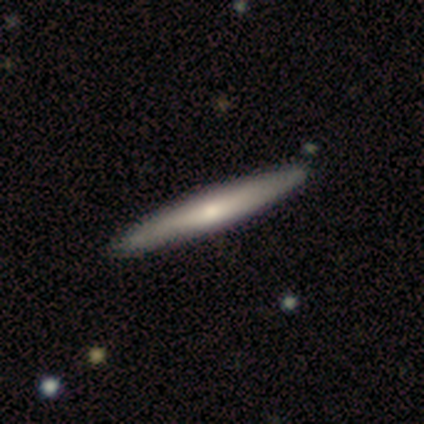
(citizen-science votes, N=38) Smooth or featured? 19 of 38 (50%) said featured or disk. Edge-on disk? 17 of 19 (89%) said yes. Edge-on bulge? 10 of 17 (59%) said rounded. Merging? 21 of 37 (57%) said none.